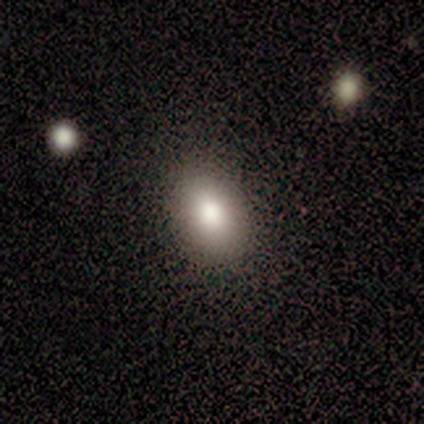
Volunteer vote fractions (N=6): Volunteers were most divided on "how rounded": in between: 80%, round: 20%, cigar-shaped: 0%. More confident: merging — none (100%); smooth or featured — smooth (83%).